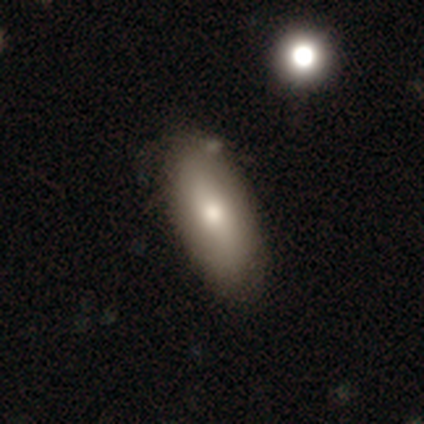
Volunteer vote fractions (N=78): smooth 78%, featured or disk 21%, star or artifact 1%. Down the decision tree: how rounded — in between (85%); merging — none (44%).